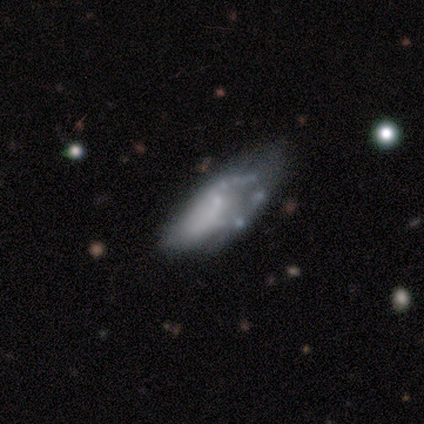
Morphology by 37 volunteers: Smooth or featured: featured or disk — 57% (smooth — 41%)
Edge-on disk: no — 95% (yes — 5%)
Bar: no — 85% (weak — 10%)
Spiral arms: no — 85% (yes — 15%)
Bulge size: none — 60% (small — 25%)
Merging: none — 42% (minor disturbance — 36%)